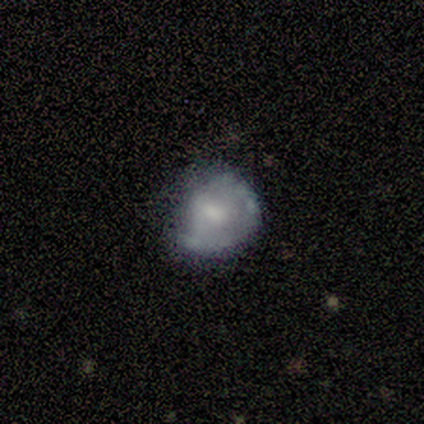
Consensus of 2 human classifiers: Smooth or featured?
  - featured or disk: 50% * (tied)
  - star or artifact: 50% * (tied)
  - smooth: 0%
Edge-on disk?
  - no: 100% *
  - yes: 0%
Bar?
  - no: 100% *
  - strong: 0%
  - weak: 0%
Spiral arms?
  - yes: 100% *
  - no: 0%
Spiral winding?
  - medium: 100% *
  - tight: 0%
  - loose: 0%
Spiral arm count?
  - 2: 100% *
  - 1: 0%
  - 3: 0%
  - 4: 0%
  - more than 4: 0%
  - can't tell: 0%
Bulge size?
  - small: 100% *
  - dominant: 0%
  - large: 0%
  - moderate: 0%
  - none: 0%
Merging?
  - none: 100% *
  - minor disturbance: 0%
  - major disturbance: 0%
  - merger: 0%